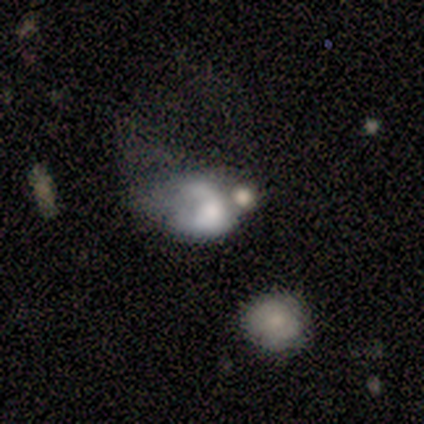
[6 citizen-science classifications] smooth-or-featured: smooth: 67% | featured or disk: 33% | star or artifact: 0%
  how-rounded: in between: 75% | cigar-shaped: 25% | round: 0%
  merging: major disturbance: 50% | none: 17% | minor disturbance: 17% | merger: 17%